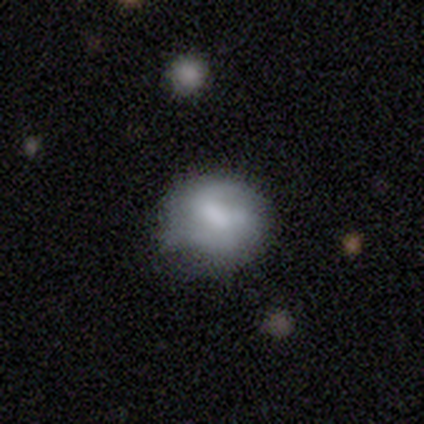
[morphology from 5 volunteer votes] Smooth or featured?
  - smooth: 60% *
  - featured or disk: 40%
  - star or artifact: 0%
How rounded?
  - round: 67% *
  - in between: 33%
  - cigar-shaped: 0%
Merging?
  - minor disturbance: 60% *
  - none: 40%
  - major disturbance: 0%
  - merger: 0%